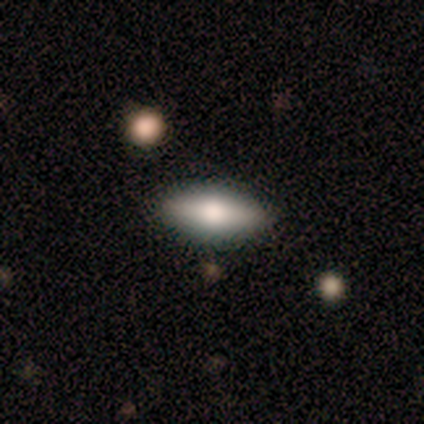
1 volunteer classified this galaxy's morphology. Smooth or featured?
  - smooth: 100% *
  - featured or disk: 0%
  - star or artifact: 0%
How rounded?
  - in between: 100% *
  - round: 0%
  - cigar-shaped: 0%
Merging?
  - none: 100% *
  - minor disturbance: 0%
  - major disturbance: 0%
  - merger: 0%